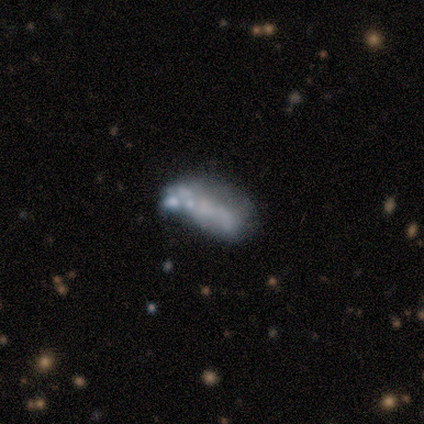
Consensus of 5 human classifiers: A smooth galaxy with no disk features (80%) that is in between round and cigar-shaped (75%). Merging: merger (80%).